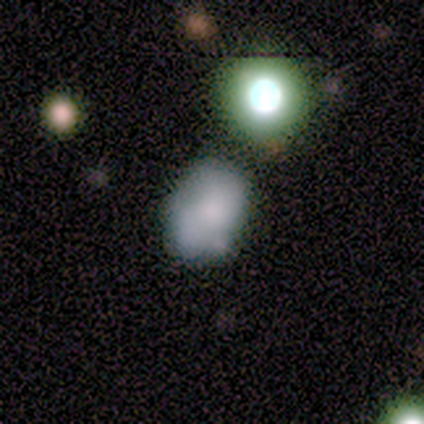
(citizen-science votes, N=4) A smooth galaxy with no disk features (100%) that is in between round and cigar-shaped (100%).

Vote fractions:
- Smooth or featured? smooth: 100% / featured or disk: 0% / star or artifact: 0%
- How rounded? in between: 100% / round: 0% / cigar-shaped: 0%
- Merging? none: 75% / minor disturbance: 25% / major disturbance: 0% / merger: 0%